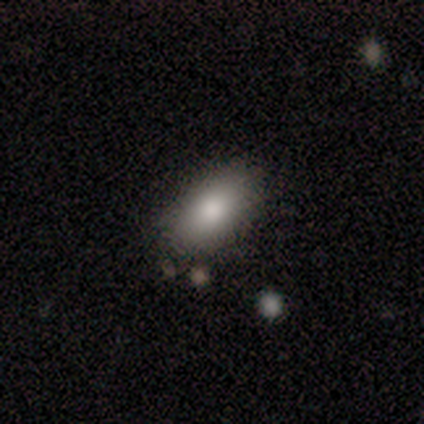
Smooth or featured: smooth — 100%
How rounded: in between — 100%
Merging: none — 80% (major disturbance — 20%)